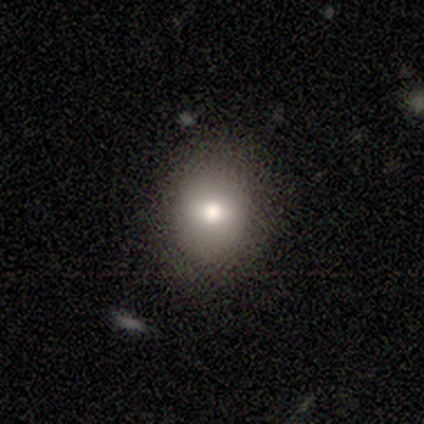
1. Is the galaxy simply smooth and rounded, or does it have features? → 60% smooth, 20% featured or disk, 20% star or artifact.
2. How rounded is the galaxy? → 100% round, 0% in between, 0% cigar-shaped.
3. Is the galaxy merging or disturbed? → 75% none, 25% minor disturbance, 0% major disturbance, 0% merger.